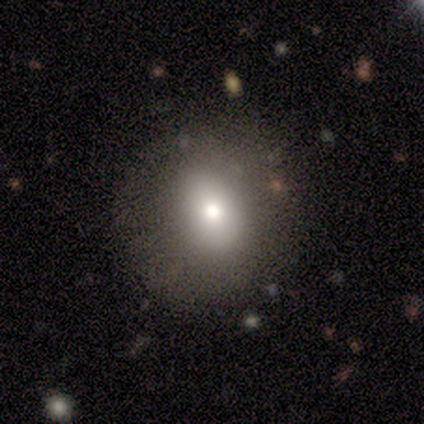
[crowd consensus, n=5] Overall: smooth (80%). How rounded: round (50%, tied with in between). Merging: none (60%; minor disturbance 20%).